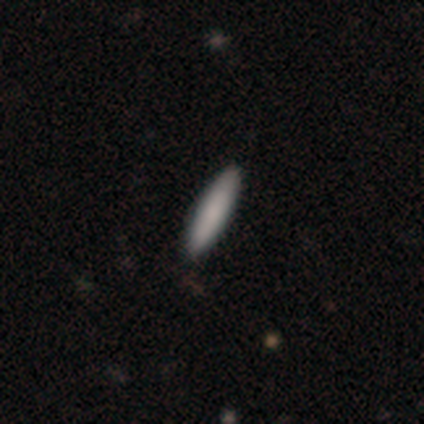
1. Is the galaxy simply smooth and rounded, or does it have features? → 60% smooth, 40% featured or disk, 0% star or artifact.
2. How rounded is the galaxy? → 100% cigar-shaped, 0% round, 0% in between.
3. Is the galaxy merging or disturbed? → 100% none, 0% minor disturbance, 0% major disturbance, 0% merger.